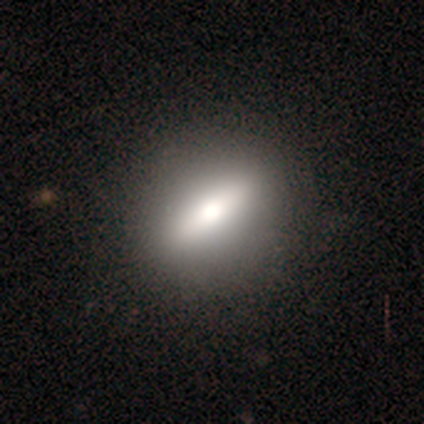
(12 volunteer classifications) Smooth or featured? smooth (67%)
How rounded? round (38%, tied with cigar-shaped)
Merging? none (82%)